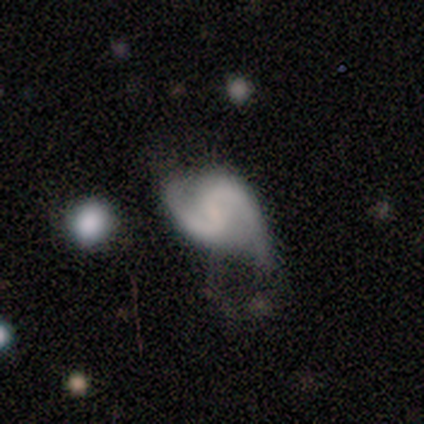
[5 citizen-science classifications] Smooth or featured?
  - featured or disk: 100% *
  - smooth: 0%
  - star or artifact: 0%
Edge-on disk?
  - no: 100% *
  - yes: 0%
Bar?
  - weak: 80% *
  - no: 20%
  - strong: 0%
Spiral arms?
  - yes: 100% *
  - no: 0%
Spiral winding?
  - medium: 80% *
  - tight: 20%
  - loose: 0%
Spiral arm count?
  - 2: 80% *
  - 1: 20%
  - 3: 0%
  - 4: 0%
  - more than 4: 0%
  - can't tell: 0%
Bulge size?
  - none: 100% *
  - dominant: 0%
  - large: 0%
  - moderate: 0%
  - small: 0%
Merging?
  - none: 60% *
  - major disturbance: 40%
  - minor disturbance: 0%
  - merger: 0%